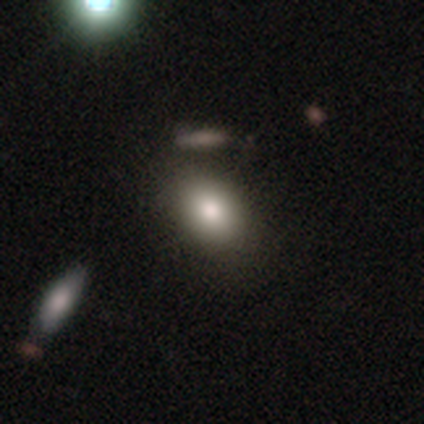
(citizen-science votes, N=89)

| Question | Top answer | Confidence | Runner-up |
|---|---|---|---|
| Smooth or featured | smooth | 82% | featured or disk (9%) |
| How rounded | in between | 75% | round (19%) |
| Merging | none | 68% | minor disturbance (23%) |